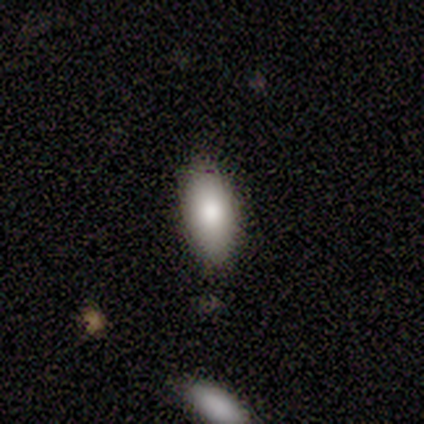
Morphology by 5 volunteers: Smooth or featured: smooth — 100%
How rounded: in between — 100%
Merging: none — 80% (merger — 20%)